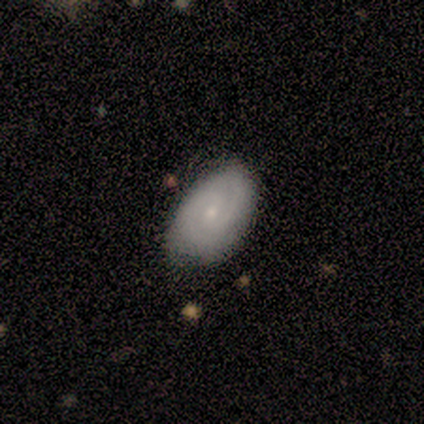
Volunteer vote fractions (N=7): Smooth or featured? 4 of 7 (57%) said featured or disk. Edge-on disk? 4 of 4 (100%) said no. Bar? 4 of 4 (100%) said no. Spiral arms? 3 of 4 (75%) said yes. Spiral winding? 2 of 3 (67%) said medium. Spiral arm count? 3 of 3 (100%) said 2. Bulge size? 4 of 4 (100%) said small. Merging? 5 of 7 (71%) said none.